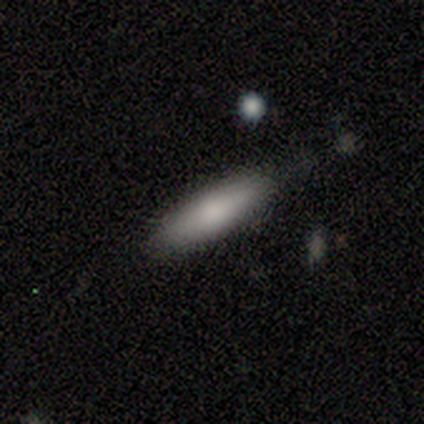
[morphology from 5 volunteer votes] type=smooth (100%); roundness=cigar-shaped (80%); merging=none (80%).